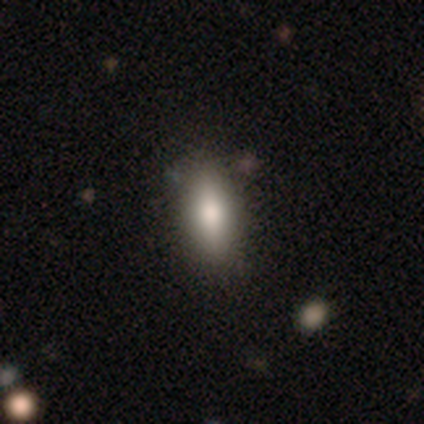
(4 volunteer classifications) smooth 75%, featured or disk 25%, star or artifact 0%. Down the decision tree: how rounded — in between (67%); merging — none (100%).